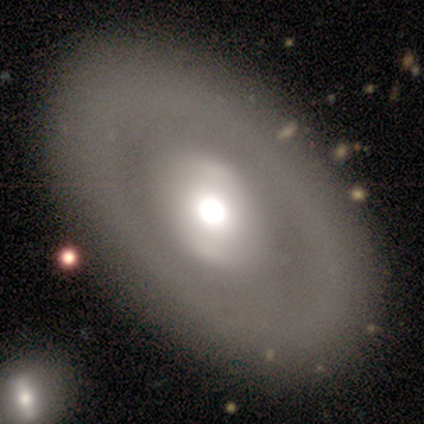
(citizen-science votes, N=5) Q: Smooth or featured?
A: featured or disk (60%); runner-up: smooth (40%)
Q: Edge-on disk?
A: no (100%)
Q: Bar?
A: no (67%); runner-up: weak (33%)
Q: Spiral arms?
A: no (100%)
Q: Bulge size?
A: moderate (100%)
Q: Merging?
A: none (80%); runner-up: major disturbance (20%)